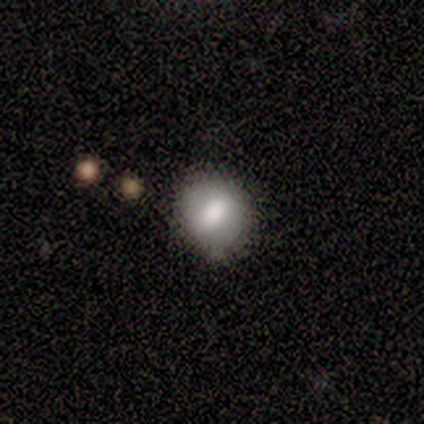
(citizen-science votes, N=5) A smooth galaxy with no disk features (60%) that is in between round and cigar-shaped (67%). Merging: none (100%).